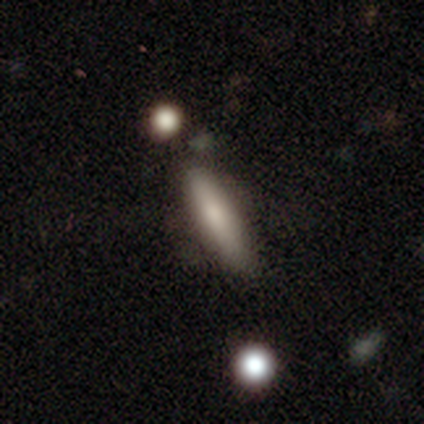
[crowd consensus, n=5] Smooth or featured?
  - smooth: 60% *
  - featured or disk: 40%
  - star or artifact: 0%
How rounded?
  - cigar-shaped: 67% *
  - in between: 33%
  - round: 0%
Merging?
  - none: 60% *
  - minor disturbance: 40%
  - major disturbance: 0%
  - merger: 0%